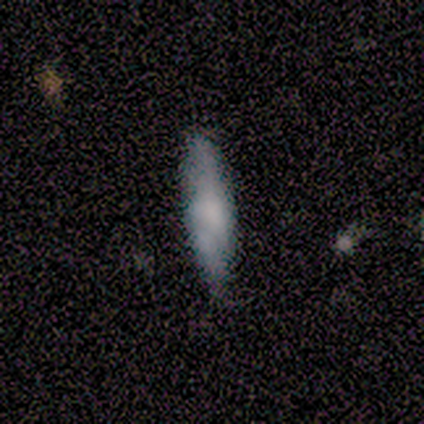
Q: Smooth or featured?
A: smooth (71%); runner-up: featured or disk (14%)
Q: How rounded?
A: cigar-shaped (80%); runner-up: in between (20%)
Q: Merging?
A: none (67%); runner-up: minor disturbance (33%)